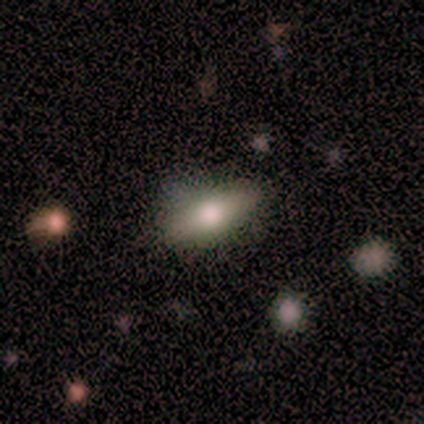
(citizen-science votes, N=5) Smooth or featured: smooth — 80% (featured or disk — 20%)
How rounded: in between — 100%
Merging: none — 80% (minor disturbance — 20%)